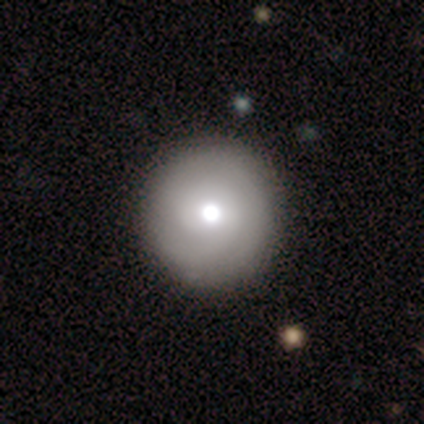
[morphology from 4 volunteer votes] Smooth or featured?
  - smooth: 50% *
  - featured or disk: 25%
  - star or artifact: 25%
How rounded?
  - round: 100% *
  - in between: 0%
  - cigar-shaped: 0%
Merging?
  - none: 100% *
  - minor disturbance: 0%
  - major disturbance: 0%
  - merger: 0%